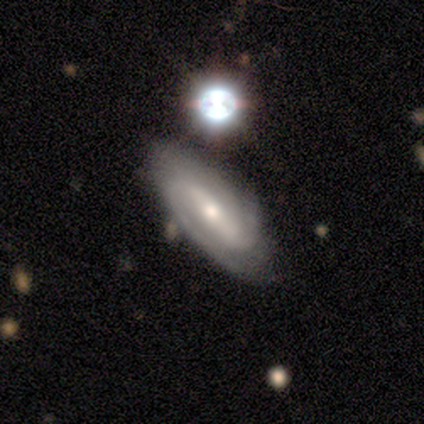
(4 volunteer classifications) A featured or disk galaxy (100%) with a strong bar (50%, tied with weak), 2 (100%) tight (50%, tied with medium) spiral arms (100%) and a small central bulge (75%). Merging: none (75%).